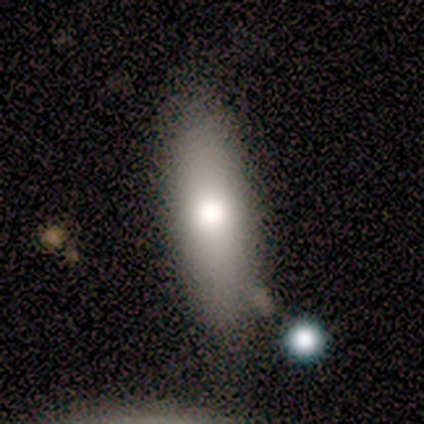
A smooth galaxy with no disk features (100%) that is cigar-shaped (60%). Merging: none (60%).